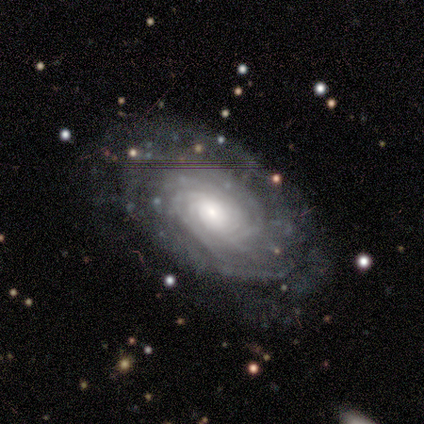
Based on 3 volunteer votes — Q: Smooth or featured?
A: featured or disk (100%)
Q: Edge-on disk?
A: no (100%)
Q: Bar?
A: no (67%); runner-up: weak (33%)
Q: Spiral arms?
A: yes (100%)
Q: Spiral winding?
A: tight (67%); runner-up: medium (33%)
Q: Spiral arm count?
A: can't tell (67%); runner-up: 1 (33%)
Q: Bulge size?
A: moderate (67%); runner-up: large (33%)
Q: Merging?
A: none (67%); runner-up: merger (33%)